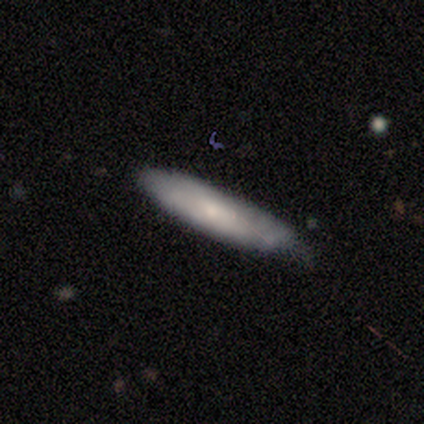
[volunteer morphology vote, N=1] smooth_or_featured: smooth (p=1.00)
how_rounded: cigar-shaped (p=1.00)
merging: none (p=1.00)